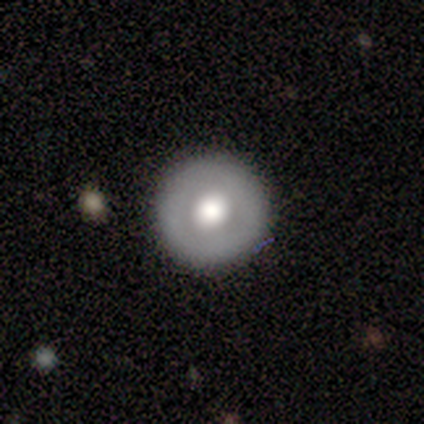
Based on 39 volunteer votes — This appears to be a smooth galaxy with no disk features (59%) that is round (100%). Merging: none (81%).